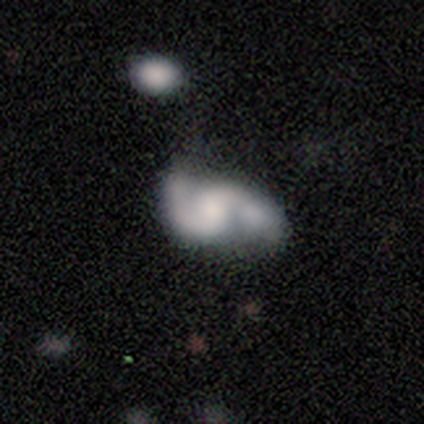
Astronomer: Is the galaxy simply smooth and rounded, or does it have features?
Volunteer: featured or disk — 82%.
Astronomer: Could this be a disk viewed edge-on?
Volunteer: no — 100%.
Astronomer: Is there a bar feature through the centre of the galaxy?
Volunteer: no — 58%.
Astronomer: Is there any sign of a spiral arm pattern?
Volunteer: yes — 91%.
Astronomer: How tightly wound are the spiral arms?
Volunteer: loose — 47% (runner-up: medium, 43%).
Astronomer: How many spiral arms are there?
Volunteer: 2 — 97%.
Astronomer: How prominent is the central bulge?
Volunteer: small — 45% (runner-up: none, 21%).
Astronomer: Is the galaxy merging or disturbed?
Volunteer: none — 42% (runner-up: merger, 31%).